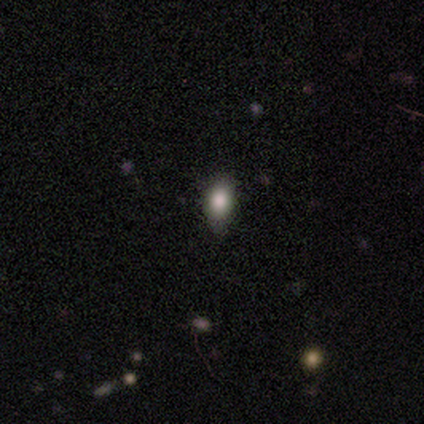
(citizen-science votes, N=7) Volunteers were most divided on "smooth or featured": smooth: 71%, star or artifact: 29%, featured or disk: 0%. More confident: how rounded — in between (100%); merging — none (100%).